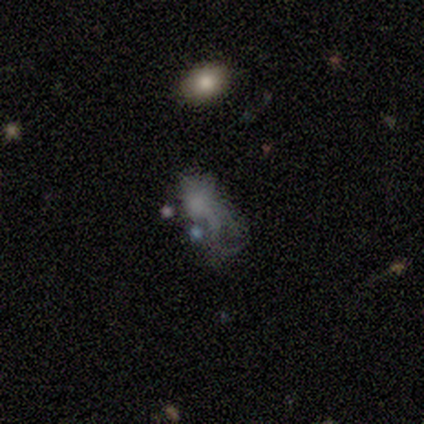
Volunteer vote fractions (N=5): A smooth galaxy with no disk features (80%) that is in between round and cigar-shaped (75%).

Vote fractions:
- Smooth or featured? smooth: 80% / star or artifact: 20% / featured or disk: 0%
- How rounded? in between: 75% / cigar-shaped: 25% / round: 0%
- Merging? major disturbance: 100% / none: 0% / minor disturbance: 0% / merger: 0%